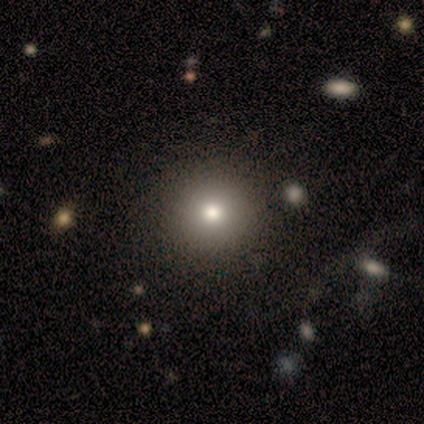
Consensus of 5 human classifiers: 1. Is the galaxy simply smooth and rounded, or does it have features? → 40% smooth (tied), 40% featured or disk (tied), 20% star or artifact.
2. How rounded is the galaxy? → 100% round, 0% in between, 0% cigar-shaped.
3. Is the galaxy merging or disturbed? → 100% none, 0% minor disturbance, 0% major disturbance, 0% merger.